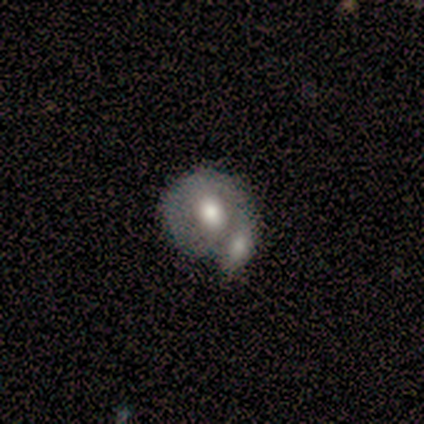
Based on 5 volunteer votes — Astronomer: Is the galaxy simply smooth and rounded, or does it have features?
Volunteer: featured or disk — 60%.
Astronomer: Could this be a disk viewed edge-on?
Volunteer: no — 100%.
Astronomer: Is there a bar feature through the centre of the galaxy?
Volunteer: no — 100%.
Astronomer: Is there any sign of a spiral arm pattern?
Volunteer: no — 67%.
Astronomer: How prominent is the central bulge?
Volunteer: moderate — 67%.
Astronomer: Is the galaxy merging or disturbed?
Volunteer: merger — 50%.